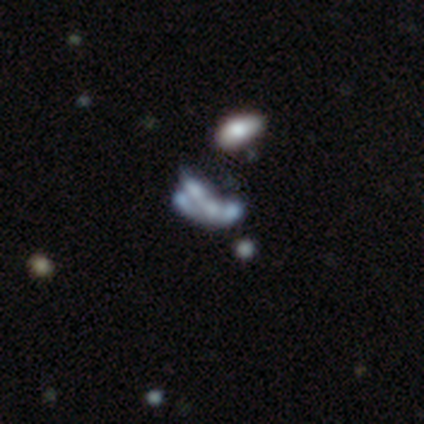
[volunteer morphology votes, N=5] smooth-or-featured: featured or disk: 60% | smooth: 40% | star or artifact: 0%
  disk-edge-on: no: 100% | yes: 0%
    bar: no: 100% | strong: 0% | weak: 0%
    has-spiral-arms: no: 100% | yes: 0%
    bulge-size: none: 100% | dominant: 0% | large: 0% | moderate: 0% | small: 0%
  merging: major disturbance: 60% | none: 20% | merger: 20% | minor disturbance: 0%